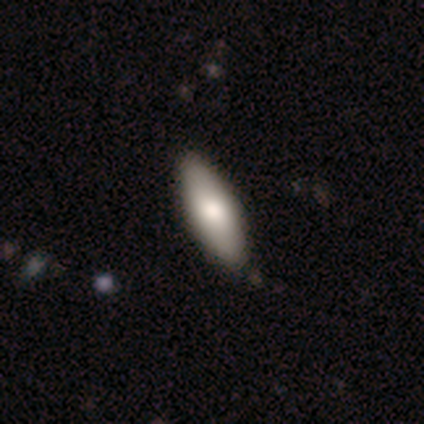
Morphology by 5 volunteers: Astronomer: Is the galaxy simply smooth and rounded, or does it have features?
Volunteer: smooth — 80%.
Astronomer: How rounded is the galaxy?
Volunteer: in between — 100%.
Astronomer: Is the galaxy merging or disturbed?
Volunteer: none — 80%.